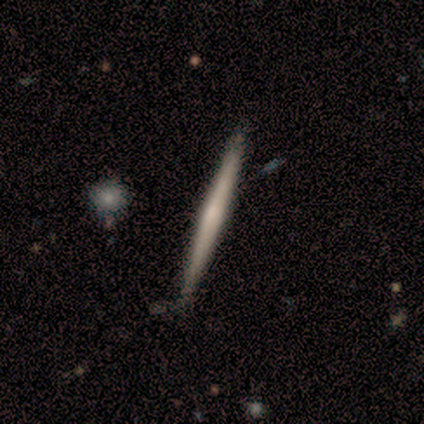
featured or disk 60%, star or artifact 40%, smooth 0%. Down the decision tree: edge-on disk — yes (100%); edge-on bulge — none (67%); merging — none (100%).